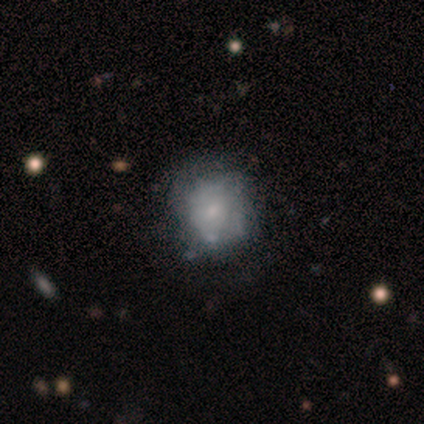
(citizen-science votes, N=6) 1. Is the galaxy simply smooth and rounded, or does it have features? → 50% featured or disk, 33% smooth, 17% star or artifact.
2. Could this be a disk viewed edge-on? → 100% no, 0% yes.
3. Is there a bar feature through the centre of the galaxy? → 67% no, 33% weak, 0% strong.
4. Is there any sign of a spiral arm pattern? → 67% no, 33% yes.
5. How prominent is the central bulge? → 67% small, 33% moderate, 0% dominant, 0% large, 0% none.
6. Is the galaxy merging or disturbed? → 80% none, 20% minor disturbance, 0% major disturbance, 0% merger.